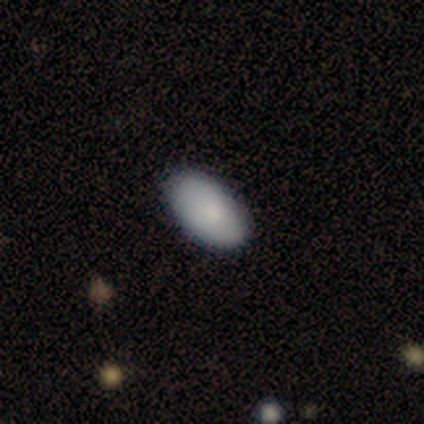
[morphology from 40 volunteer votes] Smooth or featured? smooth (82%)
How rounded? in between (100%)
Merging? none (68%)